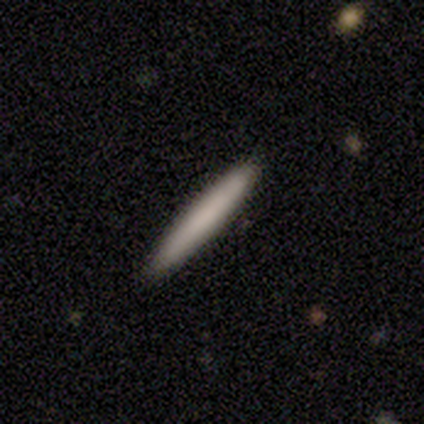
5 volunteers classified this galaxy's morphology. A smooth galaxy with no disk features (80%) that is cigar-shaped (100%).

Vote fractions:
- Smooth or featured? smooth: 80% / featured or disk: 20% / star or artifact: 0%
- How rounded? cigar-shaped: 100% / round: 0% / in between: 0%
- Merging? none: 100% / minor disturbance: 0% / major disturbance: 0% / merger: 0%